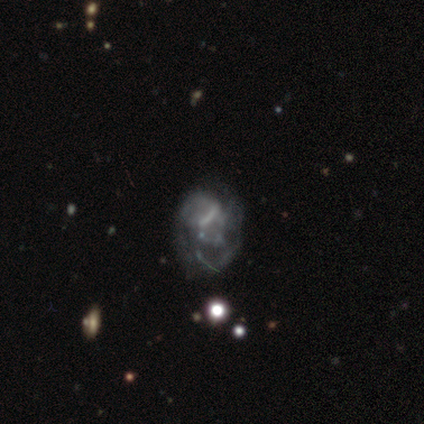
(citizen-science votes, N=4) This is clearly a featured or disk galaxy (100%). It is clearly not viewed edge-on (100%). Bar: likely no (75%). Spiral arm pattern: clearly no (100%). Central bulge: likely small (75%). Merging: likely minor disturbance (75%).